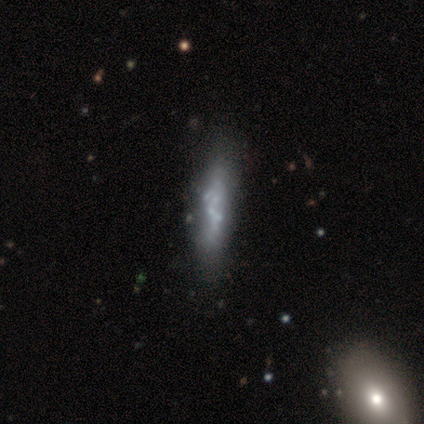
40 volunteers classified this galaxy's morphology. type=featured or disk (82%); edge-on=no (67%); bar=no (95%); spiral arms=no (100%); bulge=none (91%); merging=none (30%).